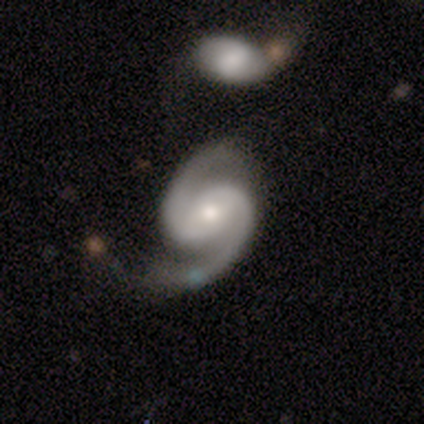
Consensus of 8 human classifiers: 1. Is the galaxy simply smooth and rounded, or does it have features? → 100% featured or disk, 0% smooth, 0% star or artifact.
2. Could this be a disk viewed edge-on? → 100% no, 0% yes.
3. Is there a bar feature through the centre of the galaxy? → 62% no, 25% weak, 12% strong.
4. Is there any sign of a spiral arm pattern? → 100% yes, 0% no.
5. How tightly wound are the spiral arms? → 88% medium, 12% loose, 0% tight.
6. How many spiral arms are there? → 100% 2, 0% 1, 0% 3, 0% 4, 0% more than 4, 0% can't tell.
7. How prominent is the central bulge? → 62% small, 38% moderate, 0% dominant, 0% large, 0% none.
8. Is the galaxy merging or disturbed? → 75% none, 25% minor disturbance, 0% major disturbance, 0% merger.